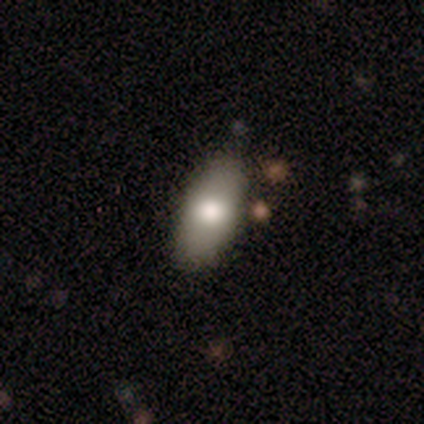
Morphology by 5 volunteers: type=smooth (80%); roundness=in between (100%); merging=none (100%).